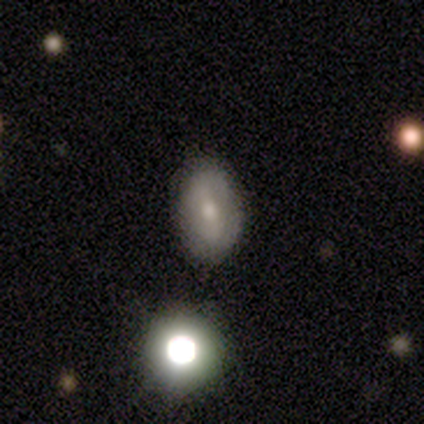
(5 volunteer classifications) smooth 60%, featured or disk 40%, star or artifact 0%. Down the decision tree: how rounded — in between (100%); merging — none (100%).